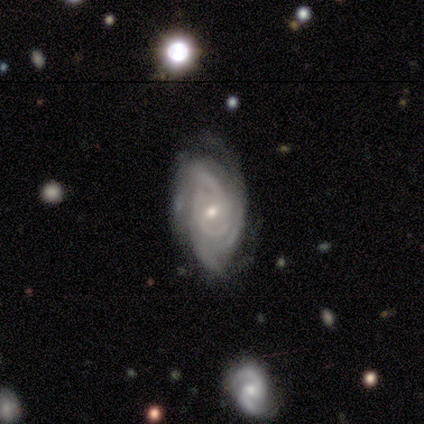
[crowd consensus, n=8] This appears to be a featured or disk galaxy (100%) with a weak bar (50%), 2 (62%) tight (62%) spiral arms (100%) and a small central bulge (62%). Merging: none (62%).